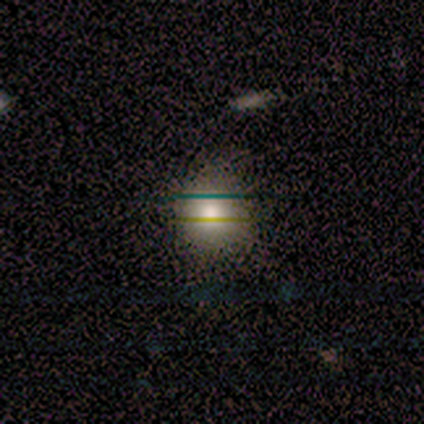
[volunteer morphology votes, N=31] A smooth galaxy with no disk features (74%) that is round (91%).

Vote fractions:
- Smooth or featured? smooth: 74% / featured or disk: 13% / star or artifact: 13%
- How rounded? round: 91% / in between: 9% / cigar-shaped: 0%
- Merging? none: 85% / minor disturbance: 11% / major disturbance: 4% / merger: 0%